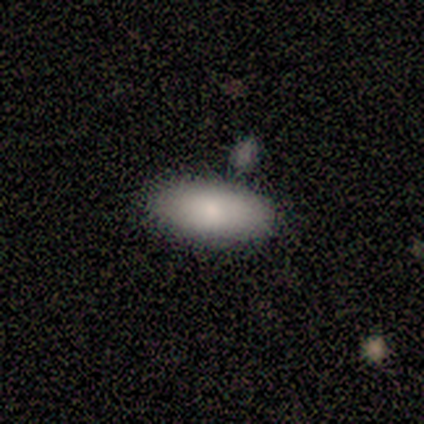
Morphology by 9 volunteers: This appears to be a smooth galaxy with no disk features (100%) that is in between round and cigar-shaped (89%). Merging: none (89%).